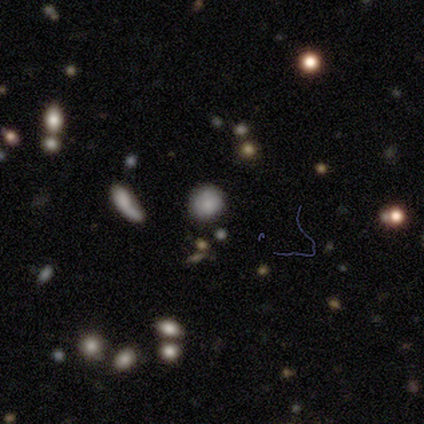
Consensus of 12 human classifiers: A smooth galaxy with no disk features (83%) that is round (90%). Merging: none (90%).